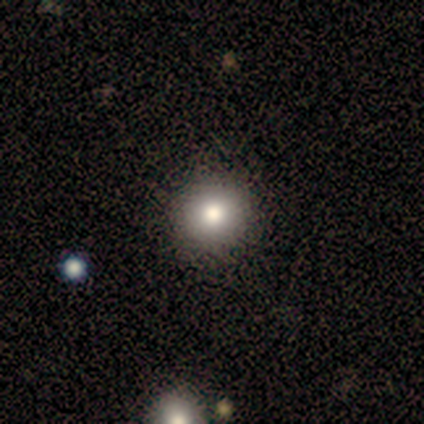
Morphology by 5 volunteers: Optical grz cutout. It shows a featured or disk galaxy (60%) with a weak bar (50%, tied with no), no spiral arms (100%) and a moderate central bulge (100%). Merging: none (80%).